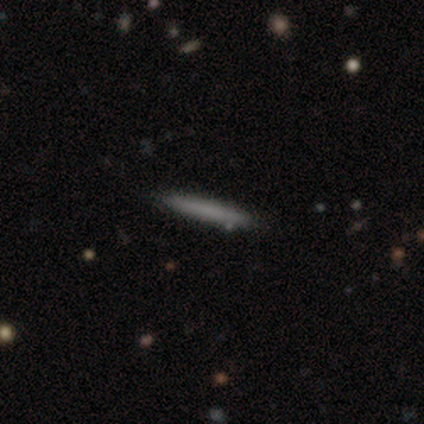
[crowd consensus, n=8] Smooth or featured? smooth (50%)
How rounded? cigar-shaped (100%)
Merging? none (100%)